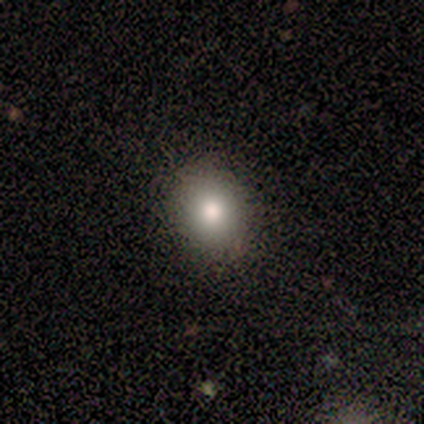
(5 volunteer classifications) smooth 80%, featured or disk 20%, star or artifact 0%. Down the decision tree: how rounded — round (75%); merging — none (100%).